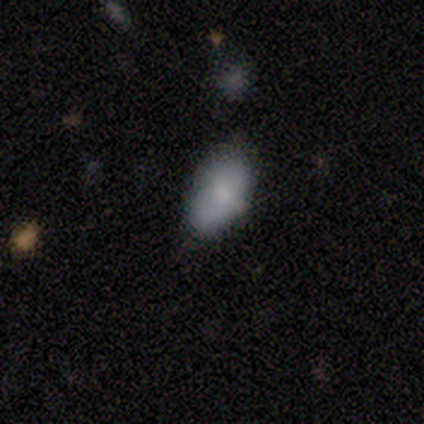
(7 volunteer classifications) Morphology: type=smooth (86%); roundness=in between (100%); merging=none (57%).